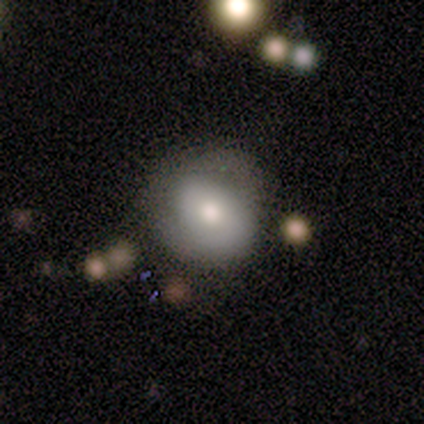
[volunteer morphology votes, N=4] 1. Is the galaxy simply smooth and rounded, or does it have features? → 50% smooth (tied), 50% featured or disk (tied), 0% star or artifact.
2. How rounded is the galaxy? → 50% round (tied), 50% in between (tied), 0% cigar-shaped.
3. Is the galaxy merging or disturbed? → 50% none, 25% minor disturbance, 25% merger, 0% major disturbance.